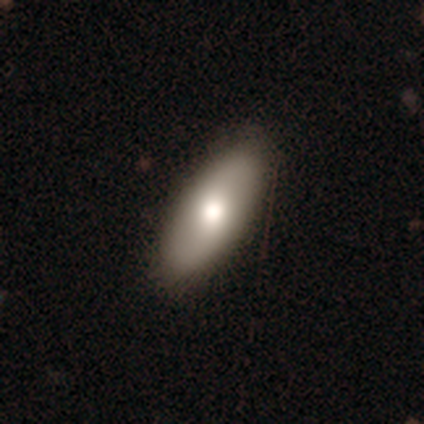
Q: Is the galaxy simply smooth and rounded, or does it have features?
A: smooth — 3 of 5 (60%).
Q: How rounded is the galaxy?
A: cigar-shaped — 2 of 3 (67%).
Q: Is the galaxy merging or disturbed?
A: none — 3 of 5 (60%).